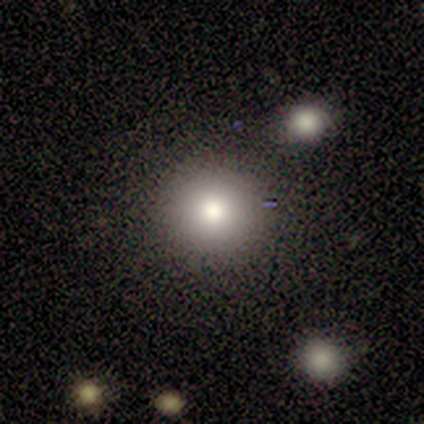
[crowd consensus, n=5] A smooth galaxy with no disk features (100%) that is round (80%).

Vote fractions:
- Smooth or featured? smooth: 100% / featured or disk: 0% / star or artifact: 0%
- How rounded? round: 80% / in between: 20% / cigar-shaped: 0%
- Merging? none: 80% / merger: 20% / minor disturbance: 0% / major disturbance: 0%